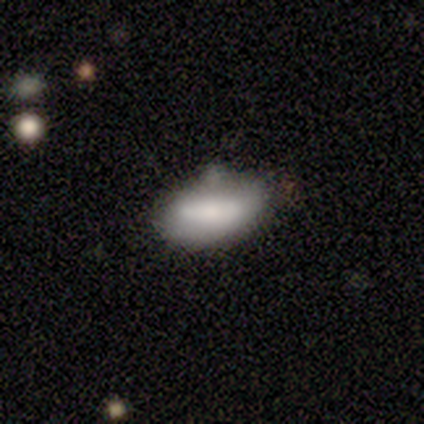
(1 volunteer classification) This appears to be a smooth galaxy with no disk features (100%) that is in between round and cigar-shaped (100%). Merging: none (100%).